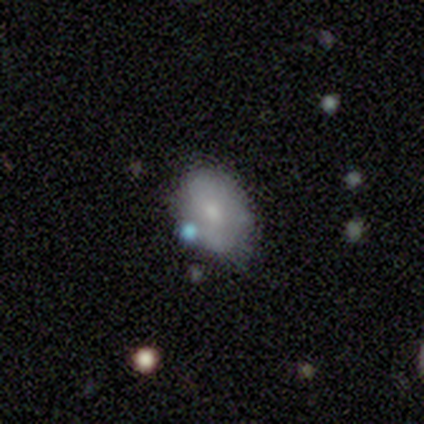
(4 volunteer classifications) A smooth galaxy with no disk features (50%, tied with featured or disk) that is round (50%, tied with in between).

Vote fractions:
- Smooth or featured? smooth: 50% (tied) / featured or disk: 50% (tied) / star or artifact: 0%
- How rounded? round: 50% (tied) / in between: 50% (tied) / cigar-shaped: 0%
- Merging? none: 75% / minor disturbance: 25% / major disturbance: 0% / merger: 0%